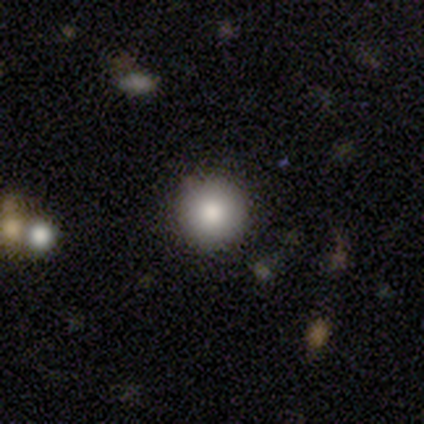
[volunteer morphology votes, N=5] A smooth galaxy with no disk features (80%) that is round (100%).

Vote fractions:
- Smooth or featured? smooth: 80% / star or artifact: 20% / featured or disk: 0%
- How rounded? round: 100% / in between: 0% / cigar-shaped: 0%
- Merging? none: 100% / minor disturbance: 0% / major disturbance: 0% / merger: 0%